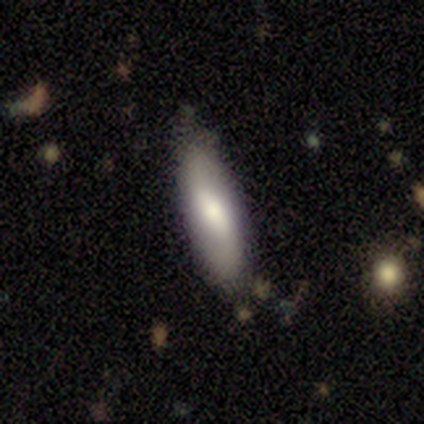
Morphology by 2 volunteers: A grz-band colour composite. It shows a smooth galaxy with no disk features (50%, tied with featured or disk) that is in between round and cigar-shaped (100%). Merging: none (100%).